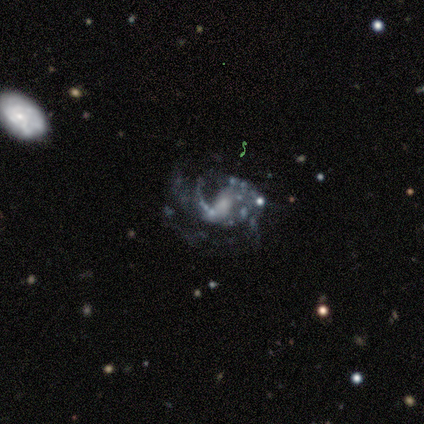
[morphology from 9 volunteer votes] featured or disk 100%, smooth 0%, star or artifact 0%. Down the decision tree: edge-on disk — no (100%); bar — weak (67%); spiral arms — yes (100%); spiral arm count — 1 (44%); spiral winding — medium (44%); bulge size — small (67%); merging — minor disturbance (44%).